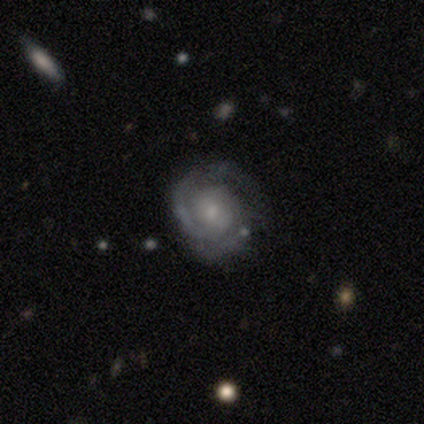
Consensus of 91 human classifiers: Smooth or featured?
  - featured or disk: 93% *
  - star or artifact: 4%
  - smooth: 2%
Edge-on disk?
  - no: 99% *
  - yes: 1%
Bar?
  - no: 65% *
  - weak: 31%
  - strong: 4%
Spiral arms?
  - yes: 95% *
  - no: 5%
Spiral winding?
  - tight: 68% *
  - medium: 30%
  - loose: 2%
Spiral arm count?
  - 2: 40% *
  - 3: 32%
  - can't tell: 16%
  - 1: 8%
  - more than 4: 2%
  - 4: 1%
Bulge size?
  - small: 63% *
  - moderate: 27%
  - none: 7%
  - large: 2%
  - dominant: 0%
Merging?
  - none: 70% *
  - minor disturbance: 20%
  - major disturbance: 8%
  - merger: 2%